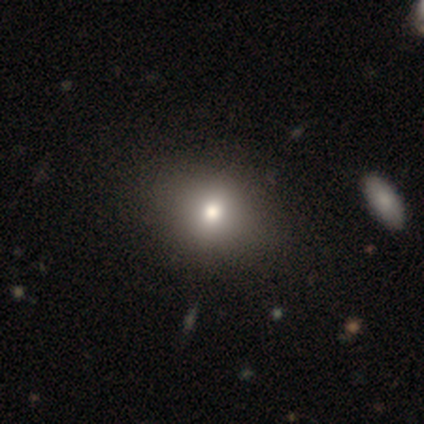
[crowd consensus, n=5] This appears to be a smooth galaxy with no disk features (80%) that is round (50%, tied with in between). Merging: none (100%).